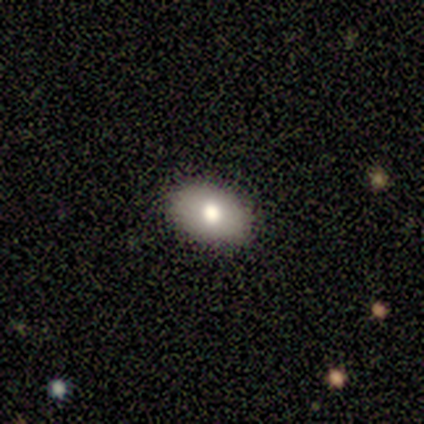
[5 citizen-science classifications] Q: Smooth or featured?
A: smooth (100%)
Q: How rounded?
A: in between (80%); runner-up: round (20%)
Q: Merging?
A: none (100%)